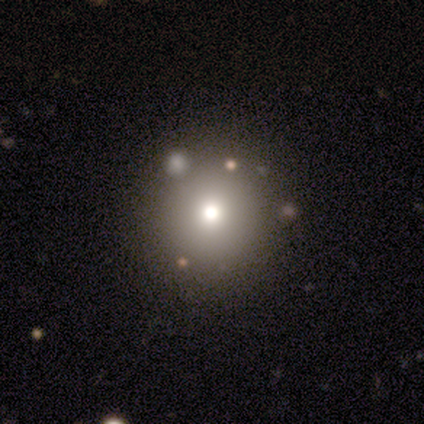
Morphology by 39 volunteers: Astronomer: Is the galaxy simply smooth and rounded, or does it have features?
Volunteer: smooth — 74%.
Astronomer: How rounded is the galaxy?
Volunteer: round — 97%.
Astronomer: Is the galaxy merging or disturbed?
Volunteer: none — 72%.